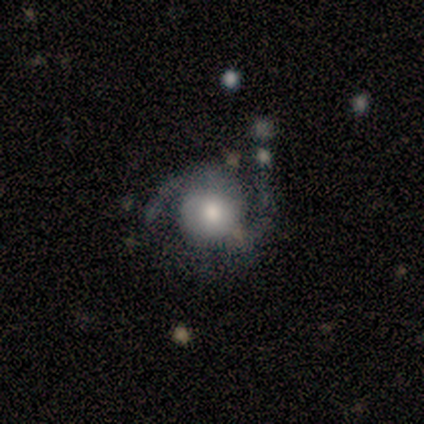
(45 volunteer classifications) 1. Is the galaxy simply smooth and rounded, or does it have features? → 89% featured or disk, 9% smooth, 2% star or artifact.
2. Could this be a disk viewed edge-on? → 98% no, 2% yes.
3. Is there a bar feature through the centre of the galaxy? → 67% no, 28% weak, 5% strong.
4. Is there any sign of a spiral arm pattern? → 87% yes, 13% no.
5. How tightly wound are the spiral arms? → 50% medium, 29% tight, 21% loose.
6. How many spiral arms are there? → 88% 2, 9% can't tell, 3% 3, 0% 1, 0% 4, 0% more than 4.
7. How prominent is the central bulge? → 54% moderate, 31% large, 10% small, 5% dominant, 0% none.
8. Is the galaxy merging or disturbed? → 50% none, 27% minor disturbance, 18% major disturbance, 5% merger.